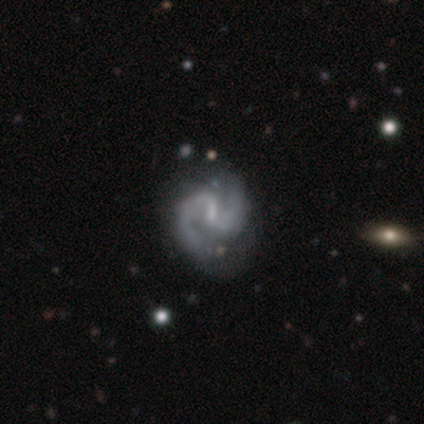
smooth-or-featured: featured or disk: 91% | star or artifact: 6% | smooth: 3%
  disk-edge-on: no: 99% | yes: 1%
    bar: weak: 66% | strong: 20% | no: 14%
    has-spiral-arms: yes: 92% | no: 8%
      spiral-winding: medium: 72% | tight: 18% | loose: 11%
      spiral-arm-count: 2: 97% | 1: 1% | can't tell: 1% | 3: 0% | 4: 0% | more than 4: 0%
    bulge-size: small: 51% | none: 28% | moderate: 18% | dominant: 2% | large: 1%
  merging: none: 76% | minor disturbance: 19% | major disturbance: 5% | merger: 0%